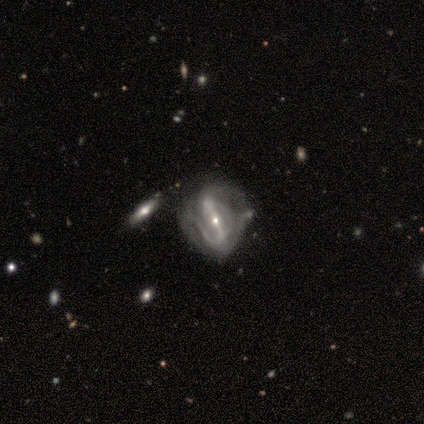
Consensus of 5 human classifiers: smooth-or-featured: featured or disk: 100% | smooth: 0% | star or artifact: 0%
  disk-edge-on: no: 100% | yes: 0%
    bar: strong: 80% | weak: 20% | no: 0%
    has-spiral-arms: yes: 60% | no: 40%
      spiral-winding: loose: 67% | tight: 33% | medium: 0%
      spiral-arm-count: 2: 67% | can't tell: 33% | 1: 0% | 3: 0% | 4: 0% | more than 4: 0%
    bulge-size: small: 80% | moderate: 20% | dominant: 0% | large: 0% | none: 0%
  merging: none: 40% | minor disturbance: 20% | major disturbance: 20% | merger: 20%